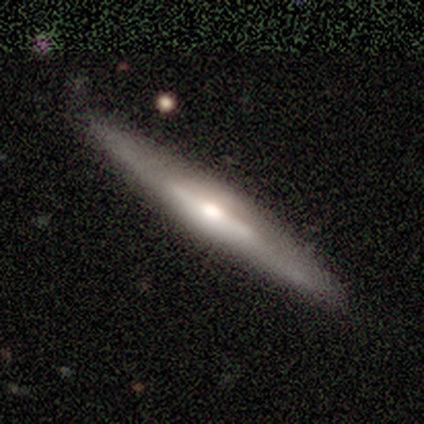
Smooth or featured? smooth (50%, tied with featured or disk)
How rounded? cigar-shaped (100%)
Merging? none (75%)